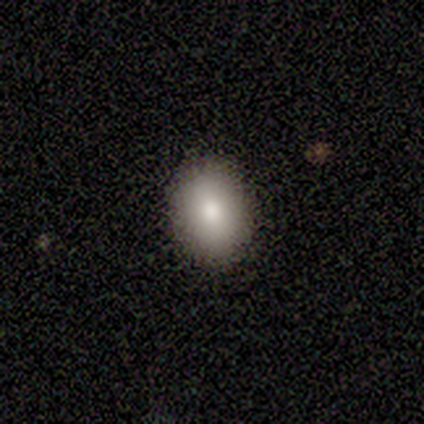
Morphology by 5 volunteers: Smooth or featured? smooth (80%)
How rounded? in between (100%)
Merging? none (100%)